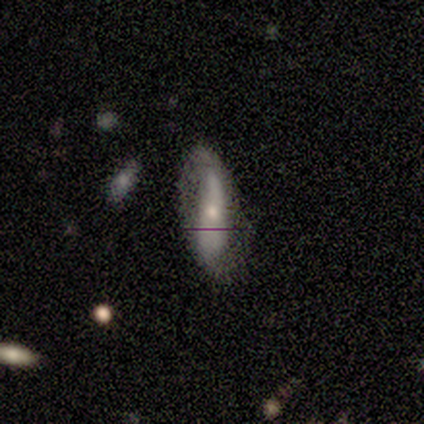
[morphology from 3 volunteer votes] This is likely a featured or disk galaxy (67%). It is clearly not viewed edge-on (100%). Bar: clearly no (100%). Spiral arm pattern: clearly yes (100%). Spiral arm count: clearly 2 (100%). Spiral winding: clearly loose (100%). Central bulge: clearly moderate (100%). Merging: likely none (67%).